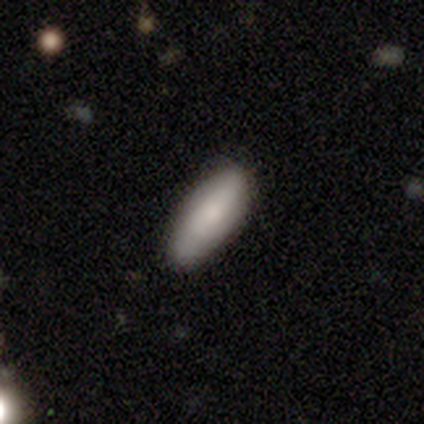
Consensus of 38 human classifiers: This is likely a smooth galaxy (74%). How rounded: likely in between (61%). Merging: clearly none (91%).